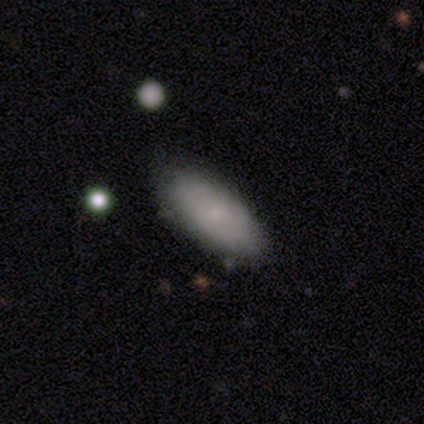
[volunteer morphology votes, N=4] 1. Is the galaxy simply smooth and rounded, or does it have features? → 100% smooth, 0% featured or disk, 0% star or artifact.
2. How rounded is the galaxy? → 75% in between, 25% cigar-shaped, 0% round.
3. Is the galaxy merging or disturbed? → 50% minor disturbance, 25% none, 25% major disturbance, 0% merger.